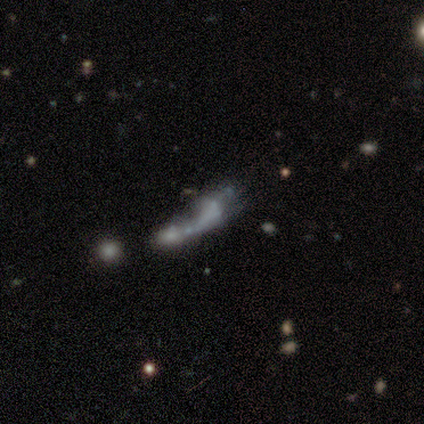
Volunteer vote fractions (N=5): Q: Smooth or featured?
A: featured or disk (60%); runner-up: smooth (40%)
Q: Edge-on disk?
A: no (67%); runner-up: yes (33%)
Q: Bar?
A: no (100%)
Q: Spiral arms?
A: no (100%)
Q: Bulge size?
A: none (100%)
Q: Merging?
A: merger (80%); runner-up: major disturbance (20%)